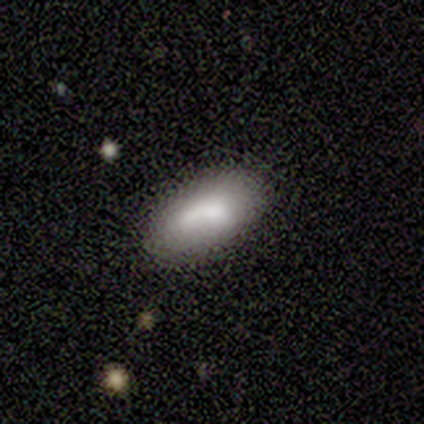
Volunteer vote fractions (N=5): Q: Smooth or featured?
A: smooth (100%)
Q: How rounded?
A: in between (100%)
Q: Merging?
A: none (80%); runner-up: merger (20%)